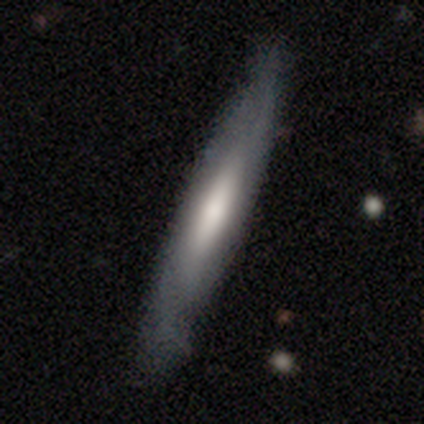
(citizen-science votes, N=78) Volunteers were most divided on "smooth or featured": smooth: 49%, featured or disk: 44%, star or artifact: 8%. Remaining: how rounded — cigar-shaped (89%); merging — none (43%).